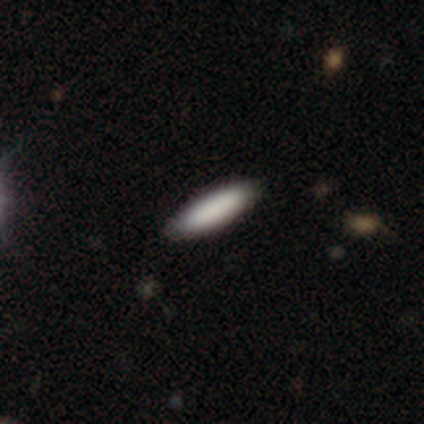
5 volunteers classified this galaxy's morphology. Smooth or featured: smooth — 80% (star or artifact — 20%)
How rounded: in between — 100%
Merging: none — 100%